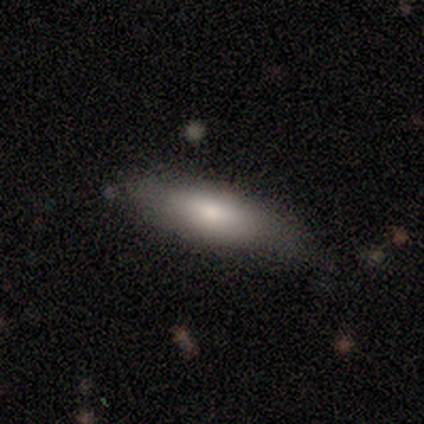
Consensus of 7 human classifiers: A smooth galaxy with no disk features (57%) that is in between round and cigar-shaped (75%).

Vote fractions:
- Smooth or featured? smooth: 57% / featured or disk: 29% / star or artifact: 14%
- How rounded? in between: 75% / cigar-shaped: 25% / round: 0%
- Merging? none: 67% / minor disturbance: 33% / major disturbance: 0% / merger: 0%